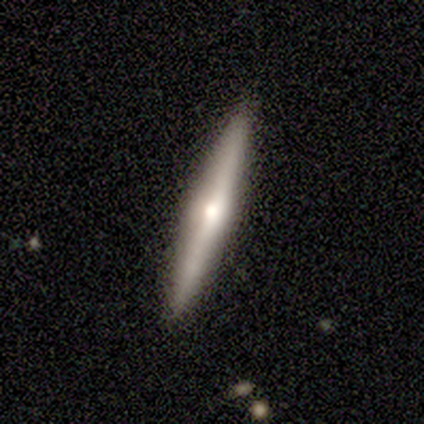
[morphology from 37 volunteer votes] Smooth or featured?
  - featured or disk: 54% *
  - smooth: 41%
  - star or artifact: 5%
Edge-on disk?
  - yes: 95% *
  - no: 5%
Edge-on bulge?
  - rounded: 89% *
  - boxy: 5%
  - none: 5%
Merging?
  - none: 94% *
  - minor disturbance: 6%
  - major disturbance: 0%
  - merger: 0%